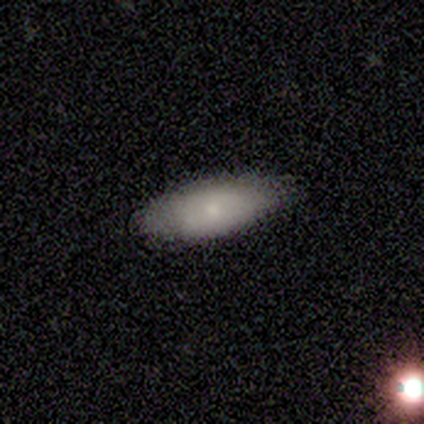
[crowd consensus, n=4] Smooth or featured? smooth (100%)
How rounded? in between (75%)
Merging? none (100%)